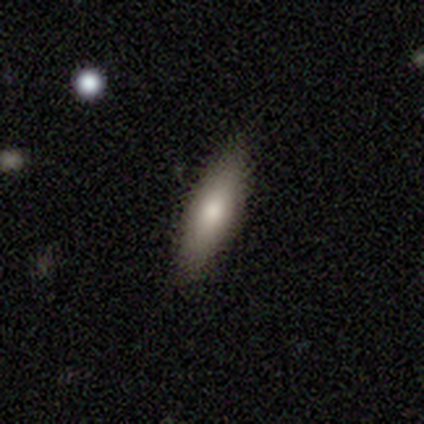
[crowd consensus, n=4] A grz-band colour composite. It shows a featured or disk galaxy (75%) viewed edge-on (67%) with a boxy central bulge (50%, tied with rounded). Merging: none (100%).